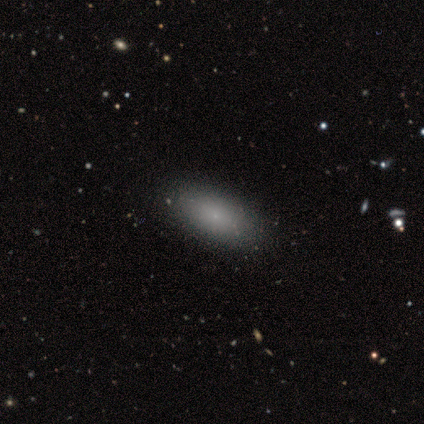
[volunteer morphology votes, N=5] Overall: smooth (100%). How rounded: in between (100%). Merging: none (100%).